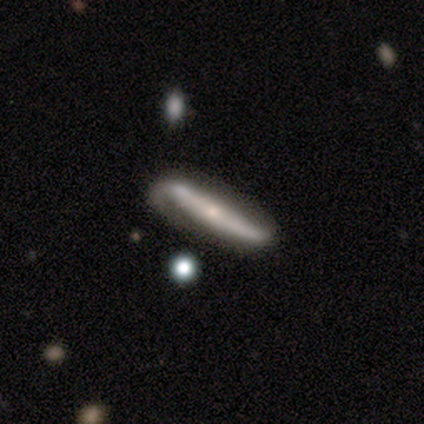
Smooth or featured?
  - featured or disk: 74% *
  - smooth: 21%
  - star or artifact: 5%
Edge-on disk?
  - yes: 66% *
  - no: 34%
Edge-on bulge?
  - rounded: 63% *
  - none: 26%
  - boxy: 11%
Merging?
  - none: 41% *
  - minor disturbance: 11%
  - major disturbance: 5%
  - merger: 3%